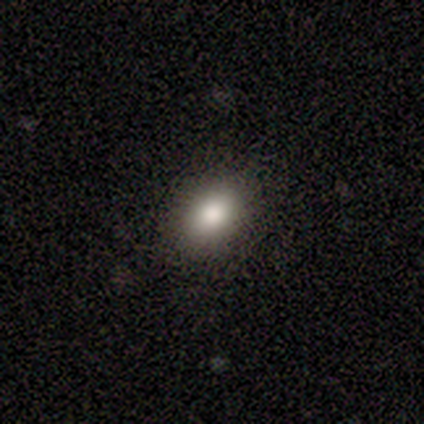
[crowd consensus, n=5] Morphology: type=smooth (60%); roundness=in between (67%); merging=none (100%).